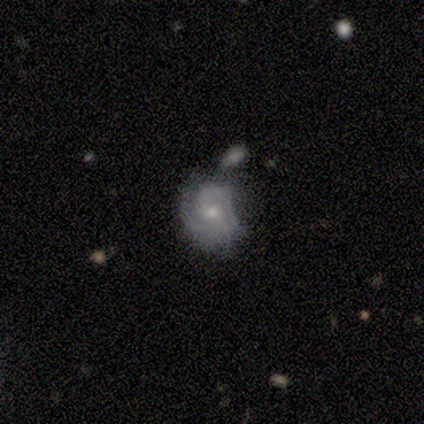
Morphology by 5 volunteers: Smooth or featured?
  - featured or disk: 100% *
  - smooth: 0%
  - star or artifact: 0%
Edge-on disk?
  - no: 100% *
  - yes: 0%
Bar?
  - no: 80% *
  - strong: 20%
  - weak: 0%
Spiral arms?
  - yes: 80% *
  - no: 20%
Spiral winding?
  - tight: 75% *
  - medium: 25%
  - loose: 0%
Spiral arm count?
  - 2: 50% *
  - 3: 25%
  - can't tell: 25%
  - 1: 0%
  - 4: 0%
  - more than 4: 0%
Bulge size?
  - small: 80% *
  - large: 20%
  - dominant: 0%
  - moderate: 0%
  - none: 0%
Merging?
  - none: 40% * (tied)
  - merger: 40% * (tied)
  - minor disturbance: 20%
  - major disturbance: 0%